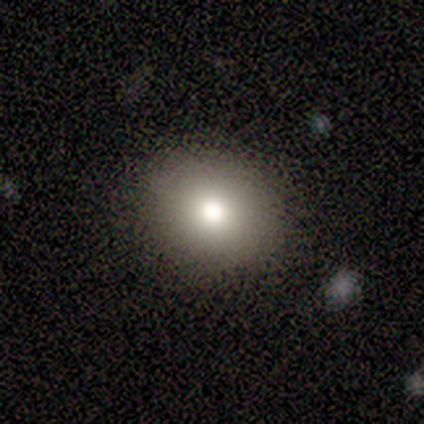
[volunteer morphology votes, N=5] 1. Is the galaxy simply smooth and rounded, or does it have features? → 80% smooth, 20% featured or disk, 0% star or artifact.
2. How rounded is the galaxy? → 75% round, 25% in between, 0% cigar-shaped.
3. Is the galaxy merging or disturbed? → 100% none, 0% minor disturbance, 0% major disturbance, 0% merger.